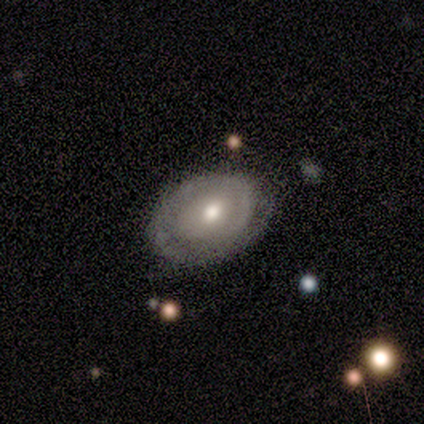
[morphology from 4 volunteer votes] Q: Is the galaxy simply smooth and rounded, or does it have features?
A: featured or disk — 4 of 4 (100%).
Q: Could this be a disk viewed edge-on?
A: no — 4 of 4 (100%).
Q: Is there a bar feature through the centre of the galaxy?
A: no — 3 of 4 (75%).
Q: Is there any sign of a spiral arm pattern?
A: yes — 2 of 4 (50%, tied with no).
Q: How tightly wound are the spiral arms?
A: tight — 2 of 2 (100%).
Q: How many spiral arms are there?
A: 1 — 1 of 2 (50%, tied with can't tell).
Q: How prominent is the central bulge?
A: moderate — 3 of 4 (75%).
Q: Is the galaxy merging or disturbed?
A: none — 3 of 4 (75%).